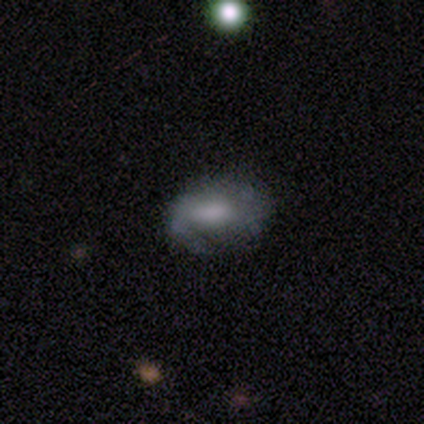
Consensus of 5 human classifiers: Smooth or featured: smooth — 40% (tied with featured or disk — 40%)
How rounded: round — 50% (tied with in between — 50%)
Merging: minor disturbance — 75% (none — 25%)